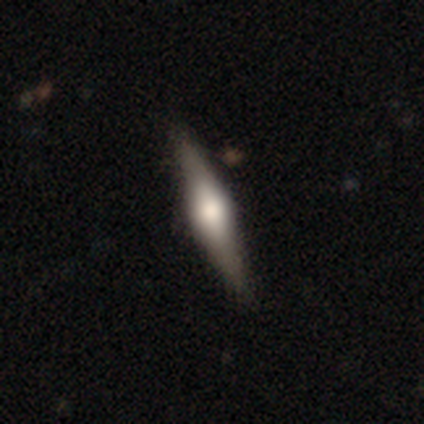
Volunteers were most divided on "edge-on bulge": rounded: 75%, boxy: 25%, none: 0%. More confident: edge-on disk — yes (100%); smooth or featured — featured or disk (80%); merging — none (80%).